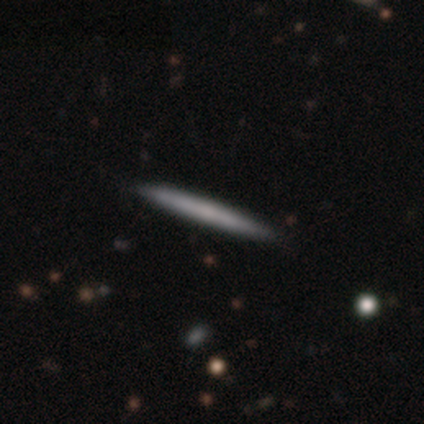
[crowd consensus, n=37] Q: Smooth or featured?
A: featured or disk (46%); runner-up: smooth (43%)
Q: Edge-on disk?
A: yes (88%); runner-up: no (12%)
Q: Edge-on bulge?
A: none (60%); runner-up: rounded (33%)
Q: Merging?
A: none (97%); runner-up: minor disturbance (3%)